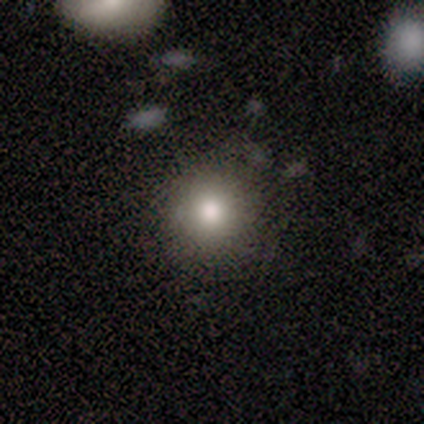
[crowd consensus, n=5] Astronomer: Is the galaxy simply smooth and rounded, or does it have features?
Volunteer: smooth — 80%.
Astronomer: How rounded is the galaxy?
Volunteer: round — 100%.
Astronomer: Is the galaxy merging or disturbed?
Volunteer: none — 100%.